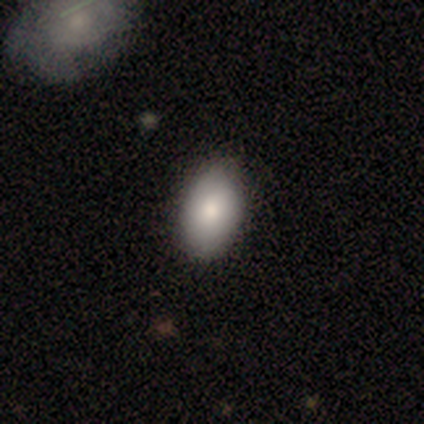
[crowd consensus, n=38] Morphology: type=smooth (89%); roundness=in between (91%); merging=none (66%).